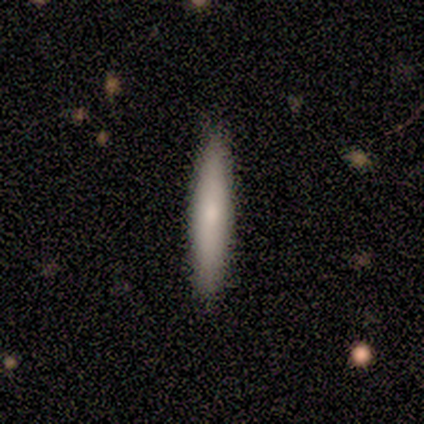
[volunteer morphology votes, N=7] Smooth or featured?
  - smooth: 57% *
  - featured or disk: 43%
  - star or artifact: 0%
How rounded?
  - cigar-shaped: 100% *
  - round: 0%
  - in between: 0%
Merging?
  - none: 100% *
  - minor disturbance: 0%
  - major disturbance: 0%
  - merger: 0%